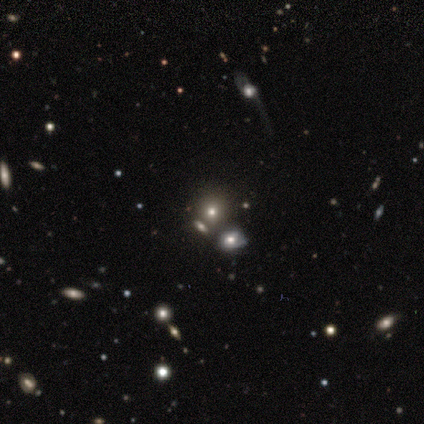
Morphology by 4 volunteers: Smooth or featured: smooth — 50% (tied with star or artifact — 50%)
How rounded: round — 50% (tied with in between — 50%)
Merging: none — 50% (tied with merger — 50%)